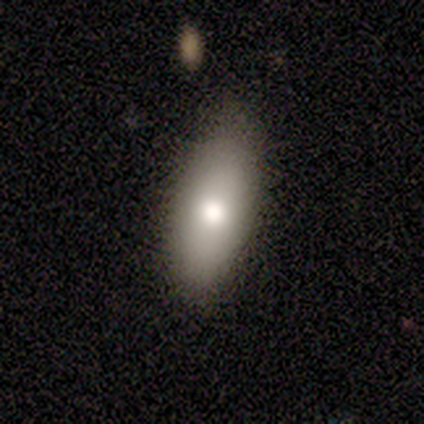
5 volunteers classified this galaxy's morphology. smooth 100%, featured or disk 0%, star or artifact 0%. Down the decision tree: how rounded — in between (80%); merging — minor disturbance (60%).